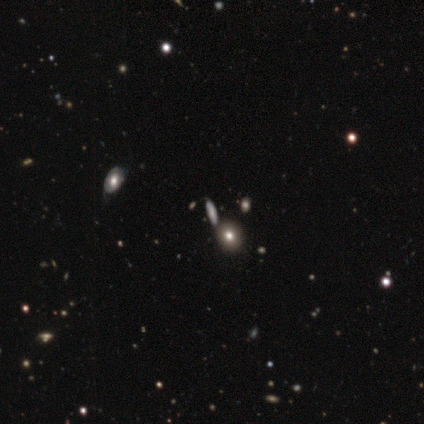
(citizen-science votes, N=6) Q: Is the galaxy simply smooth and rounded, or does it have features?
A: smooth — 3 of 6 (50%, tied with star or artifact).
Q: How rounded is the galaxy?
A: round — 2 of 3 (67%).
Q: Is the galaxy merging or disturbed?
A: none — 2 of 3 (67%).